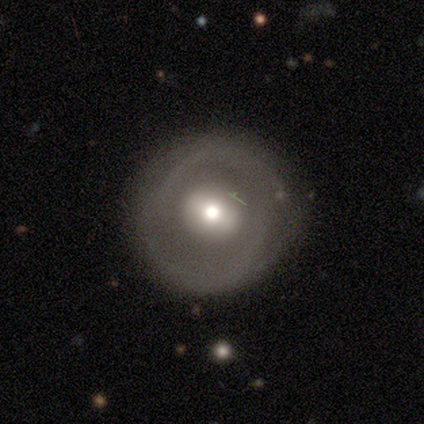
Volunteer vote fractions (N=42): A featured or disk galaxy (55%) with no bar (50%), no spiral arms (55%) and a moderate central bulge (64%).

Vote fractions:
- Smooth or featured? featured or disk: 55% / smooth: 45% / star or artifact: 0%
- Edge-on disk? no: 96% / yes: 4%
- Bar? no: 50% / strong: 27% / weak: 23%
- Spiral arms? no: 55% / yes: 45%
- Bulge size? moderate: 64% / large: 32% / small: 5% / dominant: 0% / none: 0%
- Merging? none: 55% / major disturbance: 14% / minor disturbance: 7% / merger: 0%